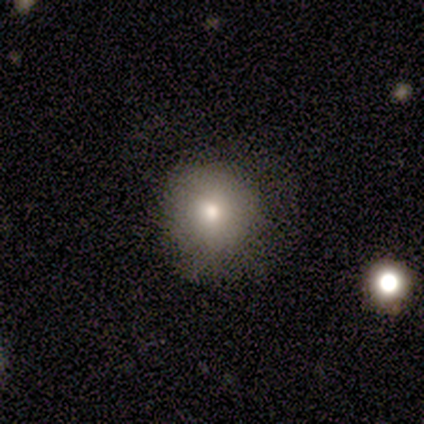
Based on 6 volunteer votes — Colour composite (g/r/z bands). It shows a smooth galaxy with no disk features (83%) that is round (100%). Merging: none (83%).